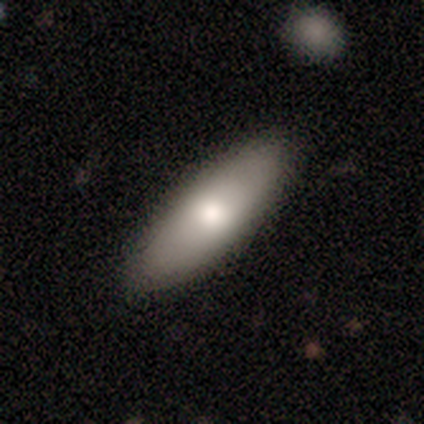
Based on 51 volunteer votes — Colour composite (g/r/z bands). It shows a smooth galaxy with no disk features (75%) that is in between round and cigar-shaped (87%). Merging: none (94%).